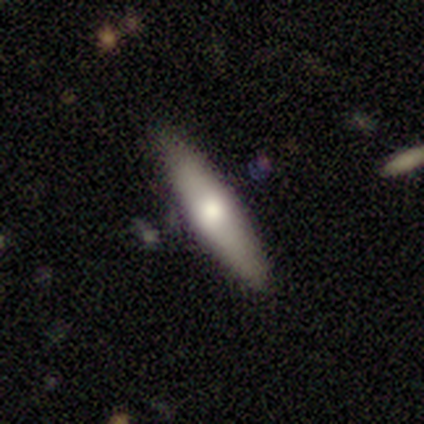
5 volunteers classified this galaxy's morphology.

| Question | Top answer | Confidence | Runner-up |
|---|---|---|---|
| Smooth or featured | smooth | 60% | featured or disk (40%) |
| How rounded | cigar-shaped | 100% | — |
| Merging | none | 100% | — |